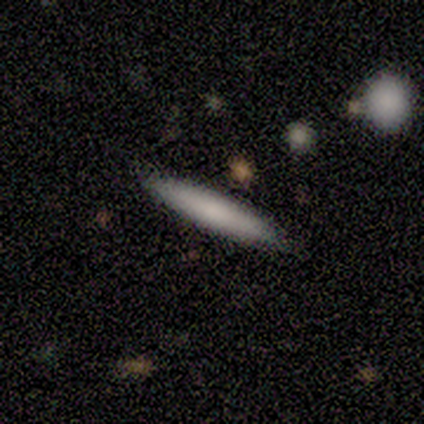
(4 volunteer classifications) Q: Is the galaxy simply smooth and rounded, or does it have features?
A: smooth — 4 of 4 (100%).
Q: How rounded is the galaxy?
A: cigar-shaped — 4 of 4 (100%).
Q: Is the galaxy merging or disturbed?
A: none — 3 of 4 (75%).